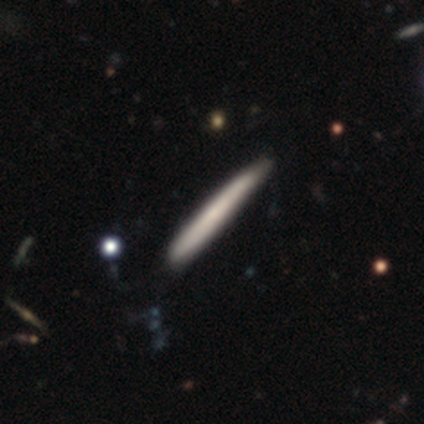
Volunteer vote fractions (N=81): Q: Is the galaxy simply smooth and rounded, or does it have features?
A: smooth — 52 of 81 (64%).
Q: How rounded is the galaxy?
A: cigar-shaped — 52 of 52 (100%).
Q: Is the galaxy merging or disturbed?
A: none — 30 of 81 (37%).